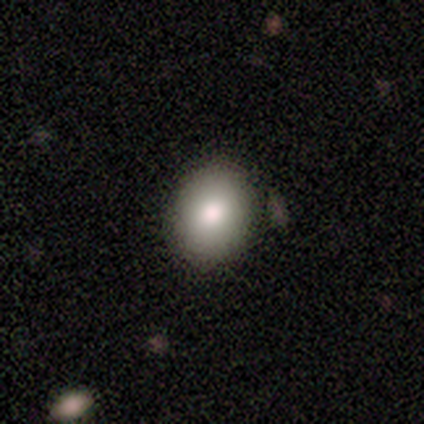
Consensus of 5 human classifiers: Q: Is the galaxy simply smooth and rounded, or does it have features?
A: smooth — 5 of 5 (100%).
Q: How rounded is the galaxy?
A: round — 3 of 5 (60%).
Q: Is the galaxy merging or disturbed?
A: none — 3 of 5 (60%).